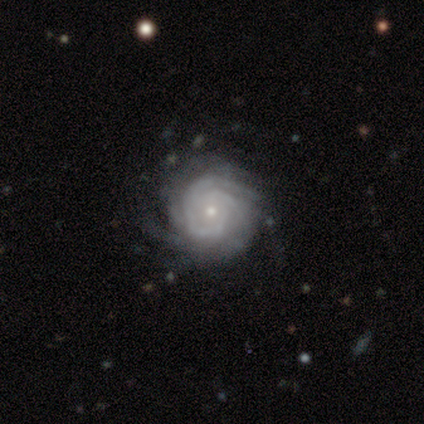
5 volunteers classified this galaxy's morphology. Overall: featured or disk (100%). Edge-on disk: no (100%). Bar: no (80%). Spiral arms: yes (100%). Spiral arm count: more than 4 (60%; 2 20%). Spiral winding: tight (80%). Bulge size: small (100%). Merging: none (100%).